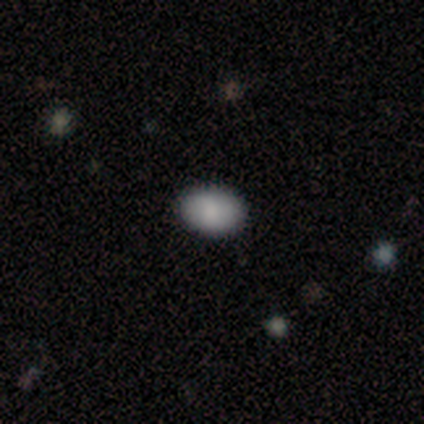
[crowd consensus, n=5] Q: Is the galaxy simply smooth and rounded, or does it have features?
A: smooth — 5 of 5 (100%).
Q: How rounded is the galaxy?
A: in between — 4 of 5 (80%).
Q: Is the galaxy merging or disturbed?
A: none — 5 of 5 (100%).